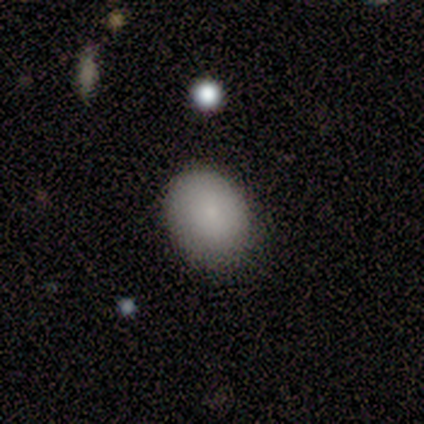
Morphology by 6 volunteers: smooth_or_featured: smooth (p=1.00)
how_rounded: round (p=0.67) [alt: in between p=0.33]
merging: none (p=0.67) [alt: minor disturbance p=0.33]